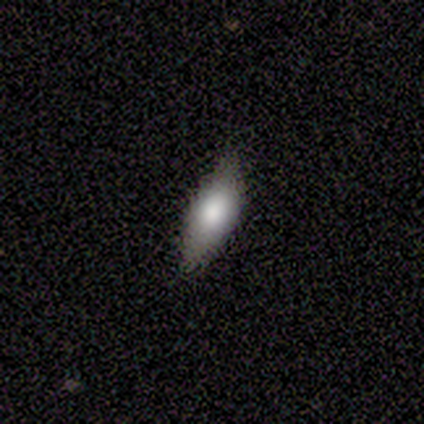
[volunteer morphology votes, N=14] smooth_or_featured: smooth (p=0.79) [alt: featured or disk p=0.14]
how_rounded: in between (p=0.82) [alt: cigar-shaped p=0.18]
merging: none (p=1.00)